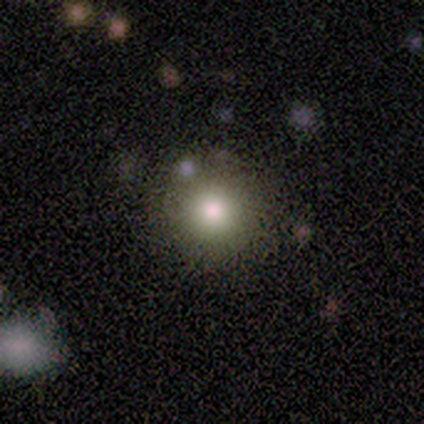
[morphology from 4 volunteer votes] smooth-or-featured: smooth: 50% (tied) | star or artifact: 50% (tied) | featured or disk: 0%
  how-rounded: round: 100% | in between: 0% | cigar-shaped: 0%
  merging: none: 50% (tied) | minor disturbance: 50% (tied) | major disturbance: 0% | merger: 0%